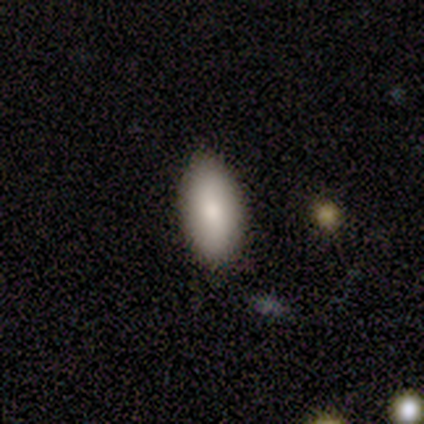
Smooth or featured? smooth (50%, tied with star or artifact)
How rounded? in between (100%)
Merging? none (100%)